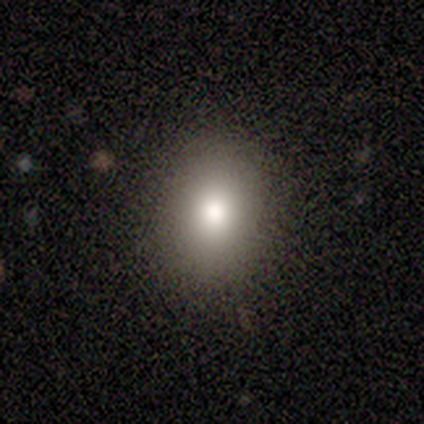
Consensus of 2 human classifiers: Morphology: type=smooth (100%); roundness=in between (100%); merging=none (100%).